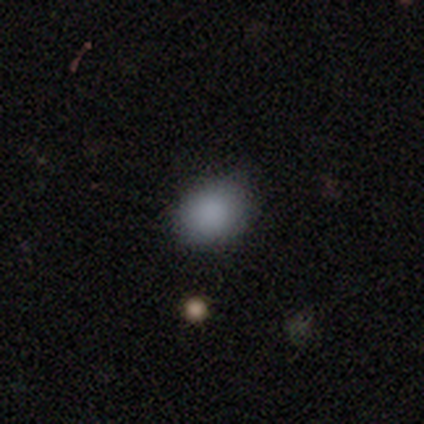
smooth_or_featured: smooth (p=0.89) [alt: star or artifact p=0.11]
how_rounded: in between (p=0.62) [alt: round p=0.38]
merging: none (p=0.62) [alt: minor disturbance p=0.25]